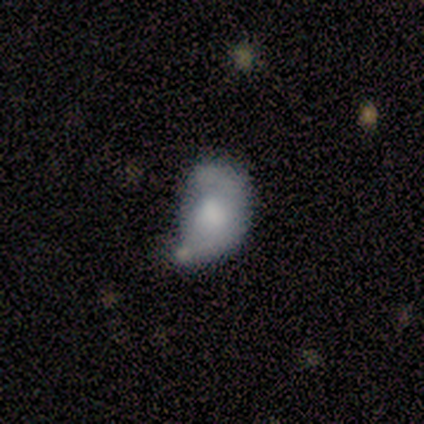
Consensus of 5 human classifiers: smooth-or-featured: smooth: 80% | featured or disk: 20% | star or artifact: 0%
  how-rounded: in between: 75% | round: 25% | cigar-shaped: 0%
  merging: merger: 60% | minor disturbance: 20% | major disturbance: 20% | none: 0%